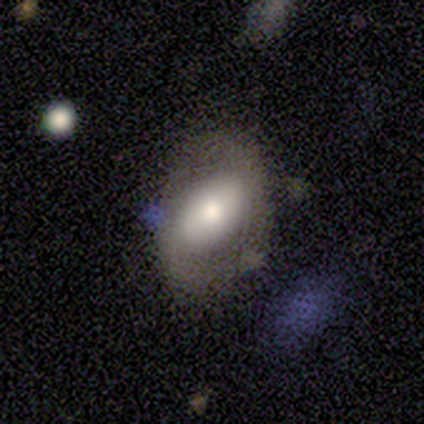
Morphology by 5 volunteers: Q: Smooth or featured?
A: featured or disk (60%); runner-up: smooth (40%)
Q: Edge-on disk?
A: no (100%)
Q: Bar?
A: strong (33%); tied with: weak (33%); no (33%)
Q: Spiral arms?
A: no (100%)
Q: Bulge size?
A: moderate (67%); runner-up: none (33%)
Q: Merging?
A: none (60%); runner-up: minor disturbance (40%)